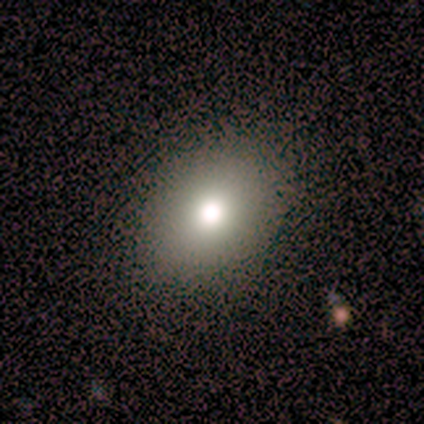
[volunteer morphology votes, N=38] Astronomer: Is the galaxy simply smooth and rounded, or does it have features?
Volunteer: smooth — 71%.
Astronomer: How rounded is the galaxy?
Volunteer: in between — 74%.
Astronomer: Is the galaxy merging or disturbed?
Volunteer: none — 87%.